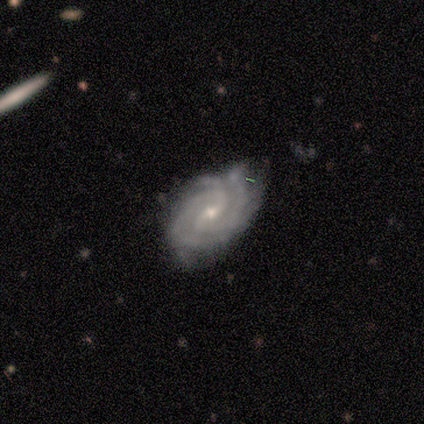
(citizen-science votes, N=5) This appears to be a featured or disk galaxy (100%) with a weak bar (60%), 2 (60%) tight (80%) spiral arms (100%) and a small central bulge (80%). Merging: none (80%).